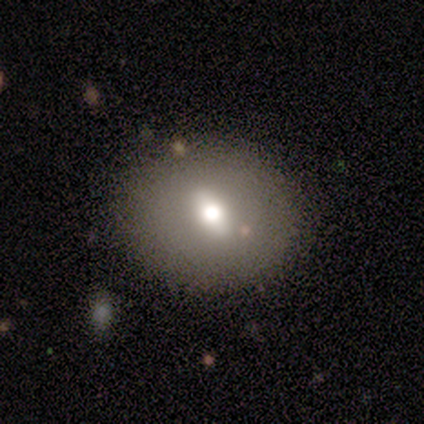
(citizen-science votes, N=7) Morphology: type=smooth (57%); roundness=round (75%); merging=none (71%).